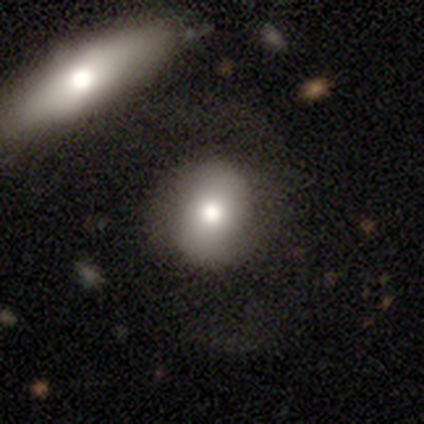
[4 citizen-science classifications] smooth-or-featured: smooth: 50% (tied) | featured or disk: 50% (tied) | star or artifact: 0%
  how-rounded: round: 50% (tied) | in between: 50% (tied) | cigar-shaped: 0%
  merging: none: 50% | minor disturbance: 25% | merger: 25% | major disturbance: 0%